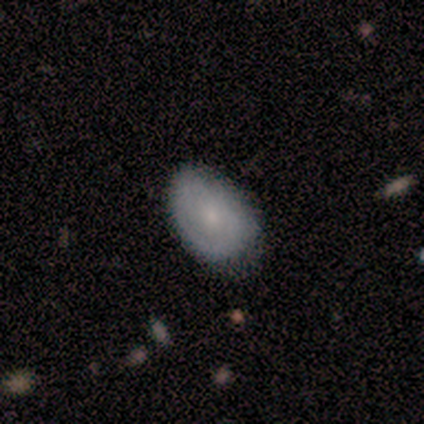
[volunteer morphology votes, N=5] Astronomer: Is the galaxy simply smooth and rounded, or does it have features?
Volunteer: smooth — 100%.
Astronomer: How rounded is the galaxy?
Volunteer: in between — 100%.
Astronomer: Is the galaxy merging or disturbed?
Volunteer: none — 60% (runner-up: minor disturbance, 40%).